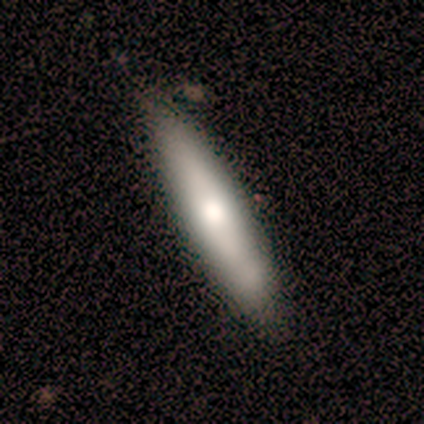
Morphology: type=smooth (80%); roundness=cigar-shaped (50%); merging=none (80%).